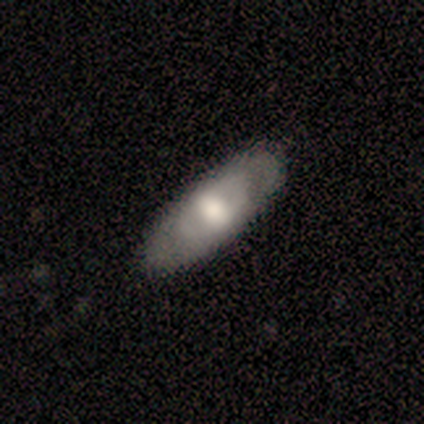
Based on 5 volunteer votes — Smooth or featured? 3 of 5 (60%) said featured or disk. Edge-on disk? 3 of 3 (100%) said no. Bar? 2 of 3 (67%) said no. Spiral arms? 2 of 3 (67%) said no. Bulge size? 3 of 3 (100%) said moderate. Merging? 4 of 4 (100%) said none.